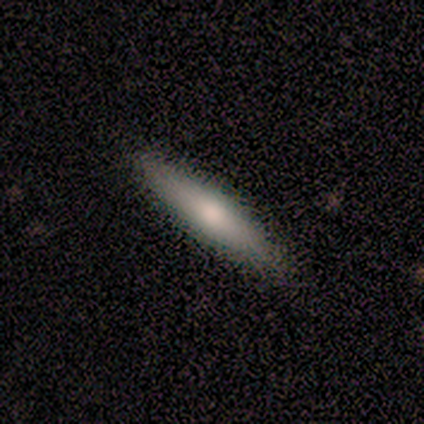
Smooth or featured? 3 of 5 (60%) said smooth. How rounded? 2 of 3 (67%) said cigar-shaped. Merging? 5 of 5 (100%) said none.